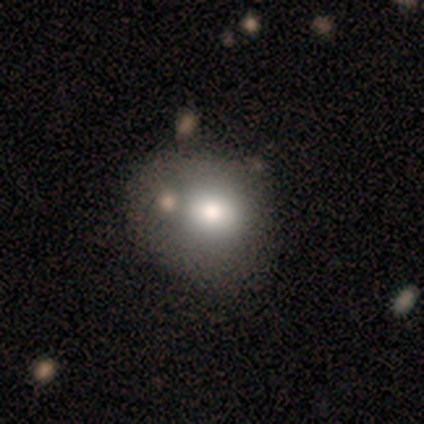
Smooth or featured? smooth (100%)
How rounded? round (75%)
Merging? none (75%)